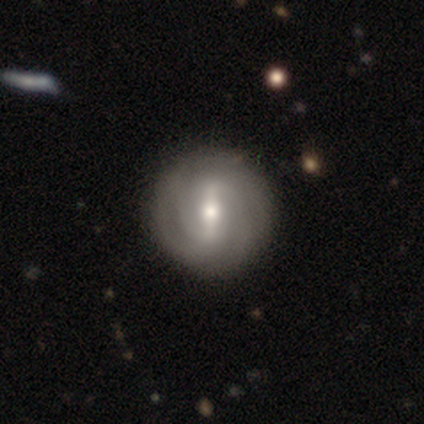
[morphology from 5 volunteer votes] Volunteers were most divided on "bar": strong: 60%, weak: 20%, no: 20%. More confident: smooth or featured — featured or disk (100%); edge-on disk — no (100%); spiral arms — yes (100%); spiral winding — tight (80%); merging — none (80%); spiral arm count — 2 (60%); bulge size — moderate (60%).